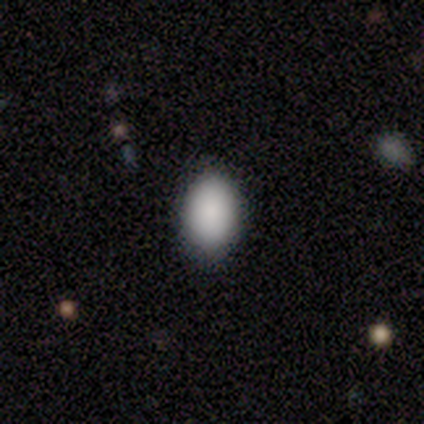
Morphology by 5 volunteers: Smooth or featured?
  - smooth: 60% *
  - featured or disk: 20%
  - star or artifact: 20%
How rounded?
  - in between: 100% *
  - round: 0%
  - cigar-shaped: 0%
Merging?
  - none: 100% *
  - minor disturbance: 0%
  - major disturbance: 0%
  - merger: 0%